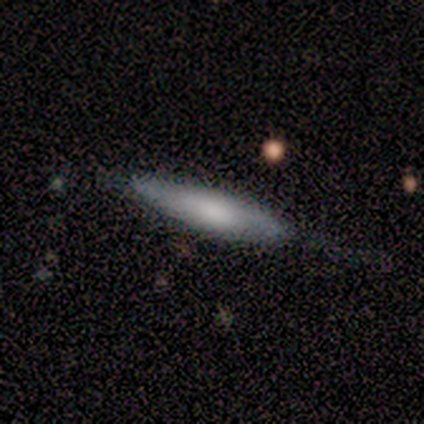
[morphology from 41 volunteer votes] A smooth galaxy with no disk features (71%) that is cigar-shaped (90%).

Vote fractions:
- Smooth or featured? smooth: 71% / featured or disk: 24% / star or artifact: 5%
- How rounded? cigar-shaped: 90% / in between: 10% / round: 0%
- Merging? none: 69% / minor disturbance: 28% / major disturbance: 3% / merger: 0%